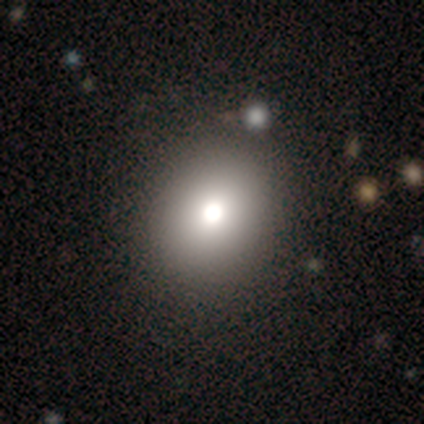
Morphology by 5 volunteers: Overall: smooth (60%; featured or disk 20%). How rounded: in between (67%; round 33%). Merging: none (50%, tied with merger).